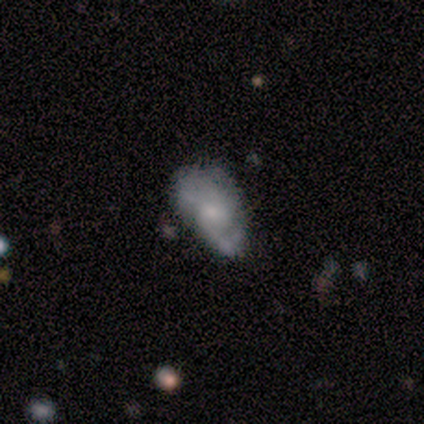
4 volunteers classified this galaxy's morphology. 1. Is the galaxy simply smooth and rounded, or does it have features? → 75% featured or disk, 25% smooth, 0% star or artifact.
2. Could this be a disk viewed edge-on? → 67% no, 33% yes.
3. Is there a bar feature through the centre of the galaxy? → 100% no, 0% strong, 0% weak.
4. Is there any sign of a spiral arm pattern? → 100% yes, 0% no.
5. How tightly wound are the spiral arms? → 100% loose, 0% tight, 0% medium.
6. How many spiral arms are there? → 50% 1 (tied), 50% 2 (tied), 0% 3, 0% 4, 0% more than 4, 0% can't tell.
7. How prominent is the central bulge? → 50% moderate (tied), 50% none (tied), 0% dominant, 0% large, 0% small.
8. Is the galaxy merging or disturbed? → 75% none, 25% minor disturbance, 0% major disturbance, 0% merger.